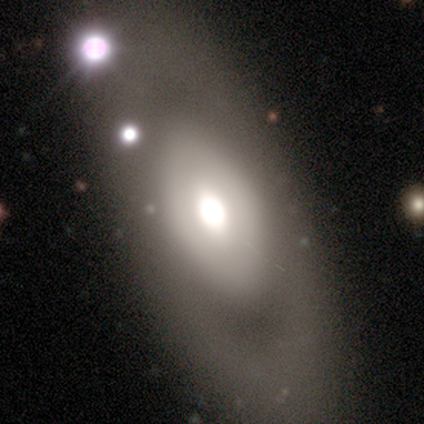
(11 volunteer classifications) smooth 36% (tied), featured or disk 36% (tied), star or artifact 27%. Down the decision tree: how rounded — in between (100%); merging — none (50%).